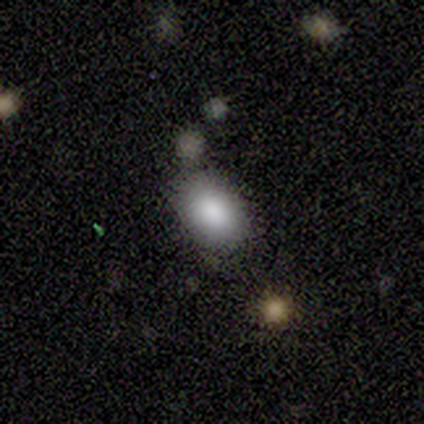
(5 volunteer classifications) A smooth galaxy with no disk features (80%) that is round (50%, tied with in between). Merging: none (50%).